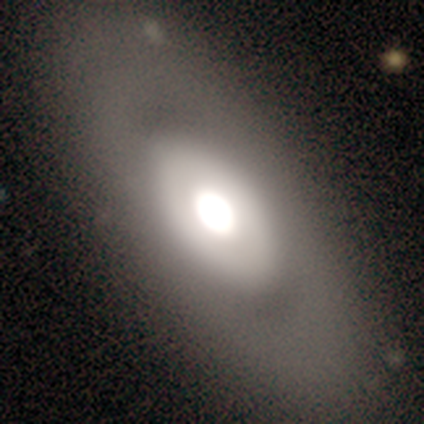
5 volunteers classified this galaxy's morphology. This is likely a featured or disk galaxy (60%). It is likely not viewed edge-on (67%). Bar: clearly no (100%). Spiral arm pattern: clearly no (100%). Central bulge: possibly dominant (50%, tied with large). Merging: likely none (75%).